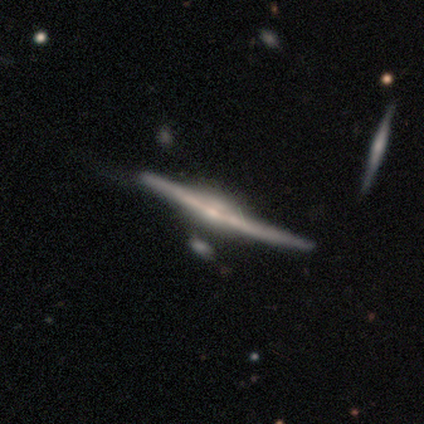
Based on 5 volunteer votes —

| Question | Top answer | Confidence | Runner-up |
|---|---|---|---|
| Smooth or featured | featured or disk | 100% | — |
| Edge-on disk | yes | 100% | — |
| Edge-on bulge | rounded | 100% | — |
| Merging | none | 60% | minor disturbance (40%) |